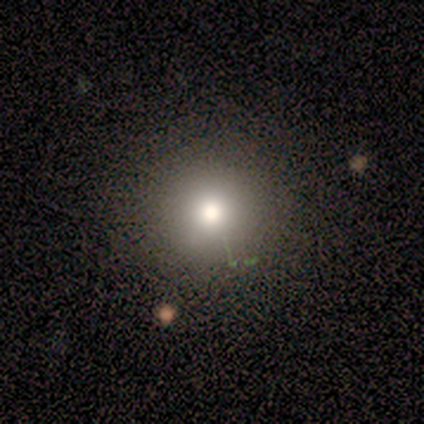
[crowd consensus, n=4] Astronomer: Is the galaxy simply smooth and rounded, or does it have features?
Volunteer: smooth — 75%.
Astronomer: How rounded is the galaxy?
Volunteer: round — 100%.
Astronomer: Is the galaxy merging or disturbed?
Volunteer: none — 100%.